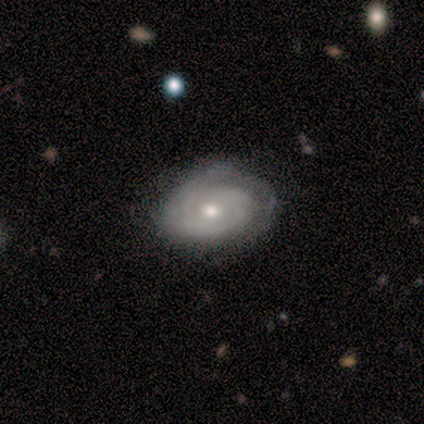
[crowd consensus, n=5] Smooth or featured? 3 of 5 (60%) said featured or disk. Edge-on disk? 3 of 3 (100%) said no. Bar? 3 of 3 (100%) said no. Spiral arms? 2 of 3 (67%) said no. Bulge size? 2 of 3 (67%) said moderate. Merging? 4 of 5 (80%) said none.